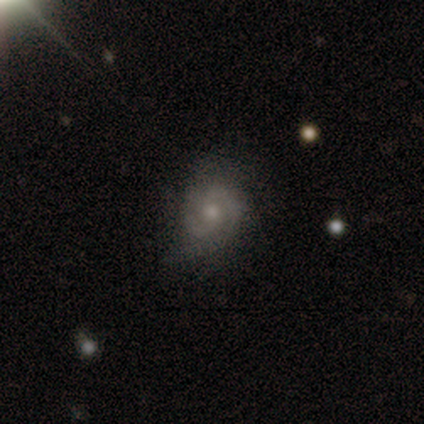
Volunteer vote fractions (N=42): This is clearly a featured or disk galaxy (81%). It is clearly not viewed edge-on (100%). Bar: likely no (79%). Spiral arm pattern: clearly yes (82%). Spiral arm count: clearly 2 (82%). Spiral winding: marginally tight (43%, tied with medium). Central bulge: likely moderate (62%). Merging: likely none (64%).